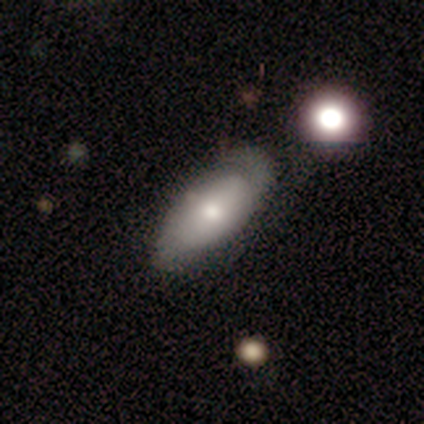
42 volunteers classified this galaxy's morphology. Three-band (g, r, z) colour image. It shows a smooth galaxy with no disk features (52%) that is in between round and cigar-shaped (91%). Merging: none (68%).